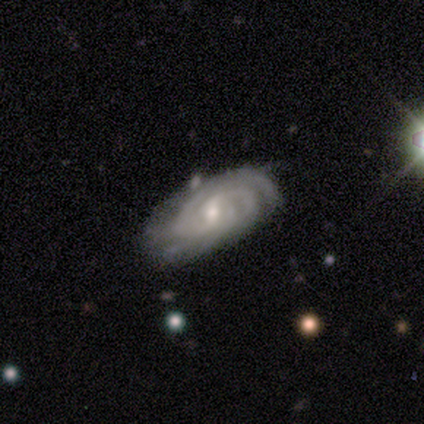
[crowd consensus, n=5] Smooth or featured: featured or disk — 80% (smooth — 20%)
Edge-on disk: no — 75% (yes — 25%)
Bar: no — 67% (strong — 33%)
Spiral arms: yes — 100%
Spiral winding: tight — 67% (medium — 33%)
Spiral arm count: 3 — 67% (2 — 33%)
Bulge size: moderate — 67% (small — 33%)
Merging: none — 80% (minor disturbance — 20%)